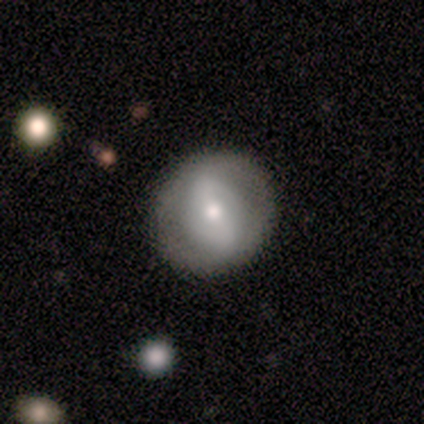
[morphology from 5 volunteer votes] Smooth or featured? 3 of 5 (60%) said featured or disk. Edge-on disk? 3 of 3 (100%) said no. Bar? 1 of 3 (33%, tied with weak and no) said strong. Spiral arms? 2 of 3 (67%) said yes. Spiral winding? 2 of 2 (100%) said loose. Spiral arm count? 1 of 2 (50%, tied with can't tell) said 2. Bulge size? 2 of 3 (67%) said moderate. Merging? 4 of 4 (100%) said none.